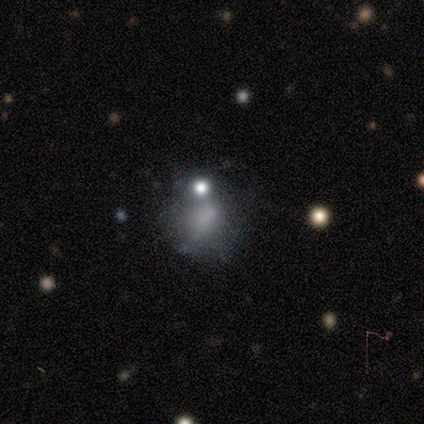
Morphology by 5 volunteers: Q: Smooth or featured?
A: smooth (100%)
Q: How rounded?
A: round (80%); runner-up: in between (20%)
Q: Merging?
A: minor disturbance (40%); runner-up: none (20%)